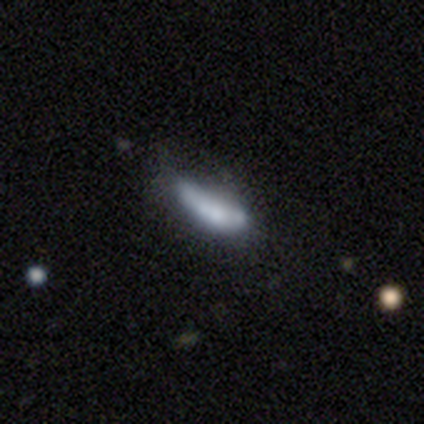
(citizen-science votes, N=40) Overall: smooth (55%; featured or disk 35%). How rounded: in between (55%; cigar-shaped 45%). Merging: minor disturbance (39%; none 28%).